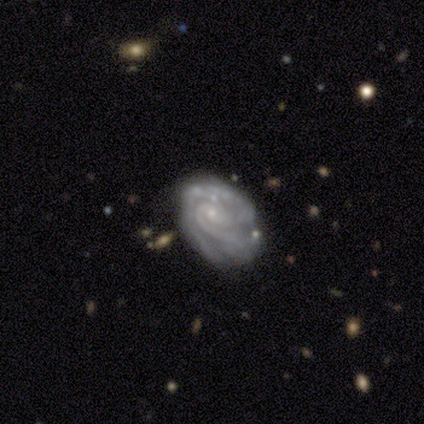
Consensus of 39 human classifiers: Smooth or featured? 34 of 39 (87%) said featured or disk. Edge-on disk? 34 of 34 (100%) said no. Bar? 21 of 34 (62%) said no. Spiral arms? 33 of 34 (97%) said yes. Spiral winding? 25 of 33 (76%) said tight. Spiral arm count? 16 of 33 (48%) said 2. Bulge size? 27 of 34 (79%) said small. Merging? 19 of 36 (53%) said none.